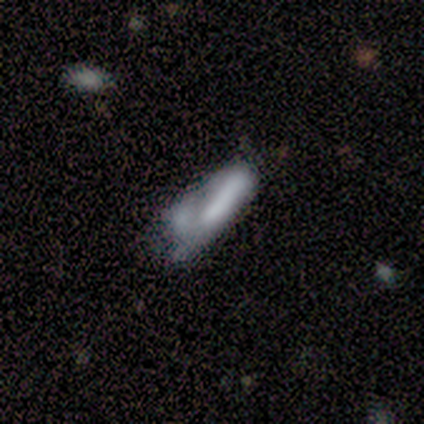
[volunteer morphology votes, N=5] This appears to be a smooth galaxy with no disk features (80%) that is in between round and cigar-shaped (50%, tied with cigar-shaped). Merging: minor disturbance (60%).